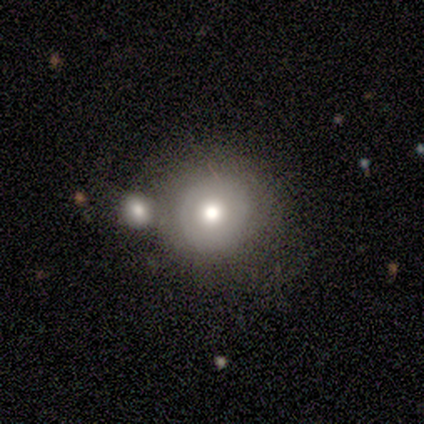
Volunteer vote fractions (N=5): A smooth galaxy with no disk features (80%) that is round (75%). Merging: none (100%).